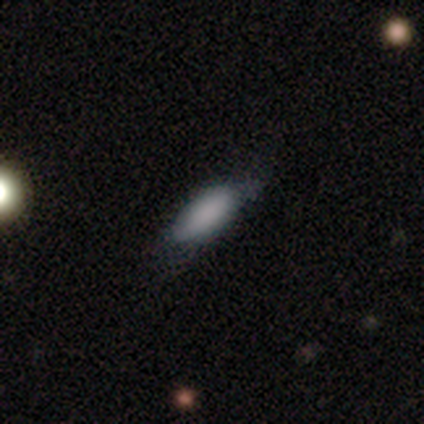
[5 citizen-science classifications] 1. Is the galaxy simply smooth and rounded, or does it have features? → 80% smooth, 20% featured or disk, 0% star or artifact.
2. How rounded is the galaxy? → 75% cigar-shaped, 25% in between, 0% round.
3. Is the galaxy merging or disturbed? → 80% none, 20% minor disturbance, 0% major disturbance, 0% merger.